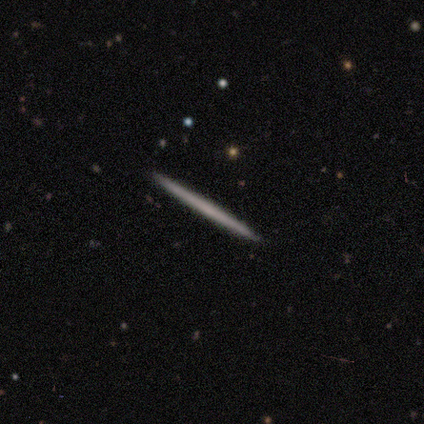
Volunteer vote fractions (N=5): featured or disk 60%, smooth 40%, star or artifact 0%. Down the decision tree: edge-on disk — yes (100%); edge-on bulge — none (100%); merging — none (100%).